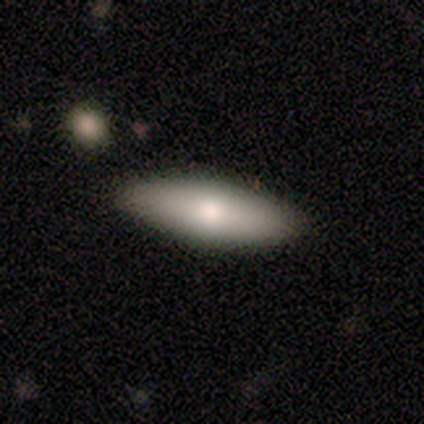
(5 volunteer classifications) Smooth or featured: smooth — 80% (featured or disk — 20%)
How rounded: in between — 50% (tied with cigar-shaped — 50%)
Merging: none — 100%